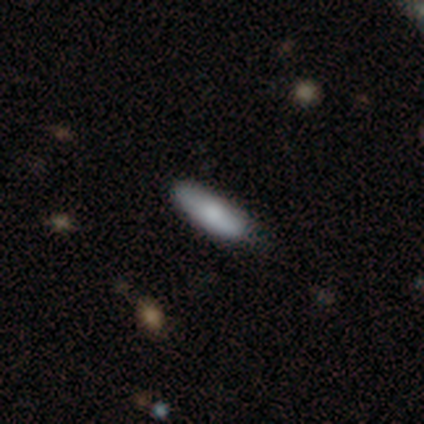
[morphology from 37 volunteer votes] A smooth galaxy with no disk features (84%) that is cigar-shaped (61%). Merging: none (57%).